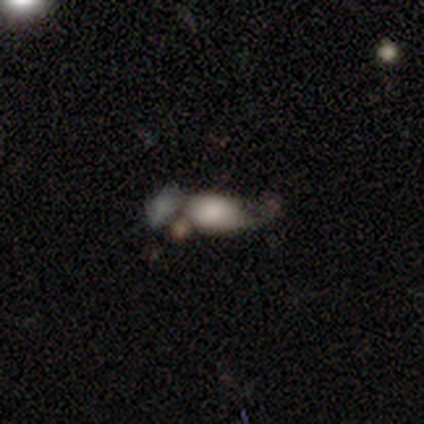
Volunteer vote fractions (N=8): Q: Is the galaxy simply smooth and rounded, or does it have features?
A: smooth — 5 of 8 (62%).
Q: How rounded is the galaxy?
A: in between — 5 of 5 (100%).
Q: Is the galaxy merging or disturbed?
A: none — 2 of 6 (33%, tied with major disturbance).